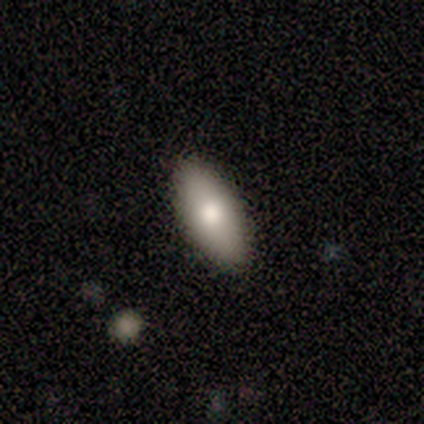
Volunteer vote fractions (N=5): A smooth galaxy with no disk features (100%) that is in between round and cigar-shaped (100%).

Vote fractions:
- Smooth or featured? smooth: 100% / featured or disk: 0% / star or artifact: 0%
- How rounded? in between: 100% / round: 0% / cigar-shaped: 0%
- Merging? none: 80% / minor disturbance: 20% / major disturbance: 0% / merger: 0%